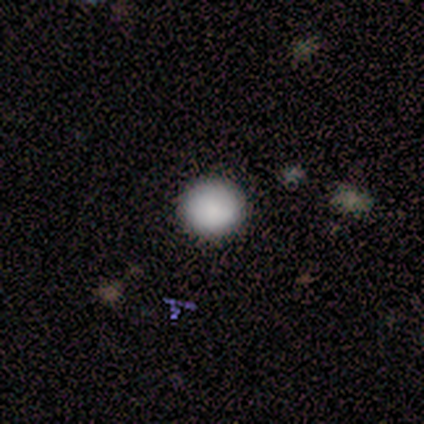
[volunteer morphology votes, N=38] Smooth or featured: smooth — 95% (star or artifact — 5%)
How rounded: round — 97% (in between — 3%)
Merging: none — 100%